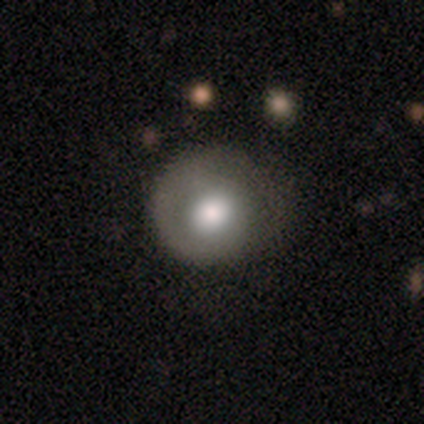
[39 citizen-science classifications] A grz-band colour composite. It shows a smooth galaxy with no disk features (62%) that is round (88%). Merging: none (61%).